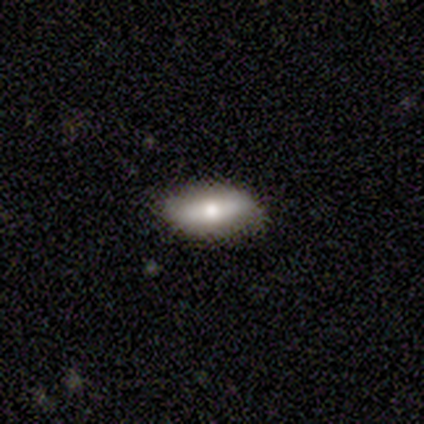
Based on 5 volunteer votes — Smooth or featured?
  - smooth: 100% *
  - featured or disk: 0%
  - star or artifact: 0%
How rounded?
  - in between: 100% *
  - round: 0%
  - cigar-shaped: 0%
Merging?
  - none: 80% *
  - minor disturbance: 20%
  - major disturbance: 0%
  - merger: 0%